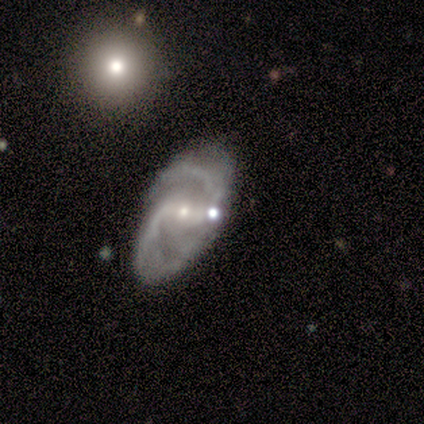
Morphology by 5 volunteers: This is clearly a featured or disk galaxy (80%). It is likely not viewed edge-on (75%). Bar: marginally strong (33%, tied with weak and no). Spiral arm pattern: clearly yes (100%). Spiral arm count: clearly 2 (100%). Spiral winding: likely tight (67%). Central bulge: clearly small (100%). Merging: possibly none (50%, tied with major disturbance).